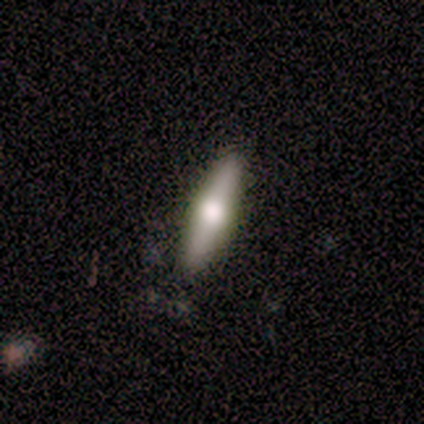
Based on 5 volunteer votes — Smooth or featured? smooth (60%)
How rounded? cigar-shaped (100%)
Merging? none (100%)